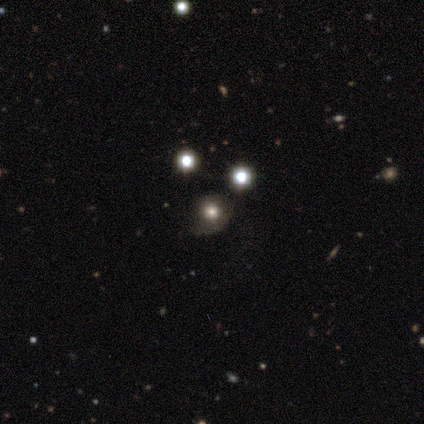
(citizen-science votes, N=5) This is likely a smooth galaxy (60%). How rounded: likely round (67%). Merging: possibly minor disturbance (50%).